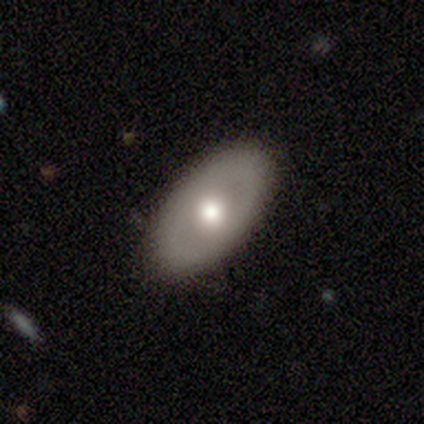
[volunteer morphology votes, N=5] Overall: smooth (60%; featured or disk 40%). How rounded: in between (100%). Merging: none (100%).